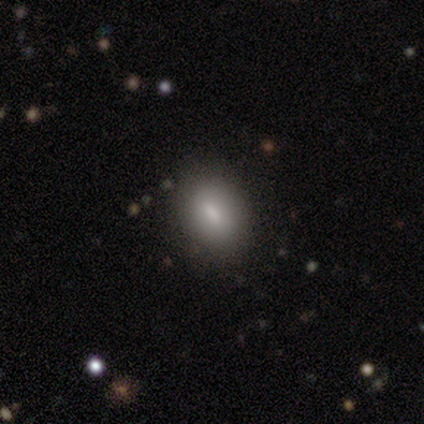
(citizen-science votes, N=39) This is likely a smooth galaxy (77%). How rounded: likely in between (67%). Merging: clearly none (83%).